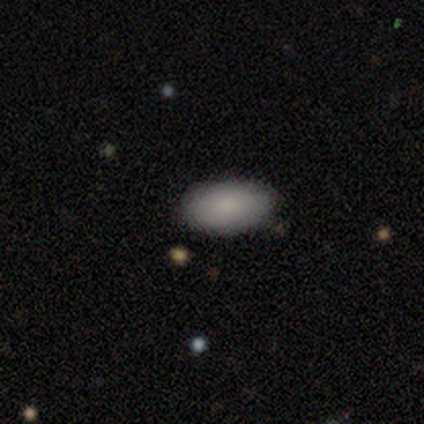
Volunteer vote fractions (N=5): A smooth galaxy with no disk features (100%) that is in between round and cigar-shaped (100%). Merging: none (100%).